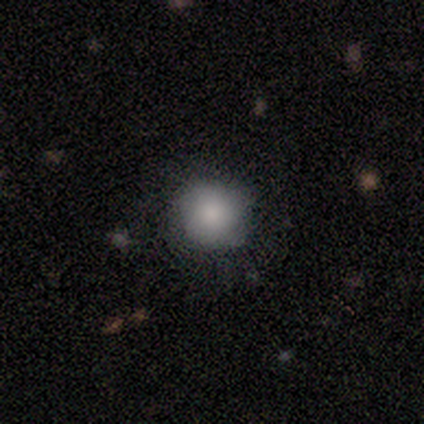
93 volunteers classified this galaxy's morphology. This is clearly a smooth galaxy (85%). How rounded: clearly round (96%). Merging: clearly none (86%).